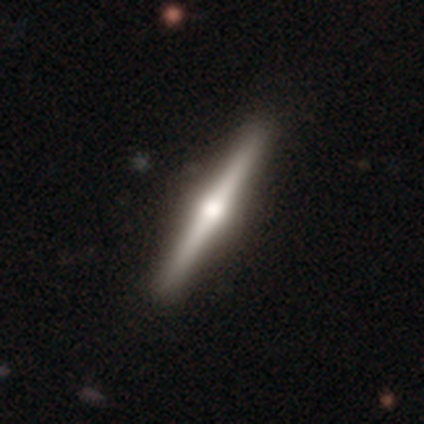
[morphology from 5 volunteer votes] type=featured or disk (80%); edge-on=yes (100%); edge-on bulge=rounded (100%); merging=none (100%).